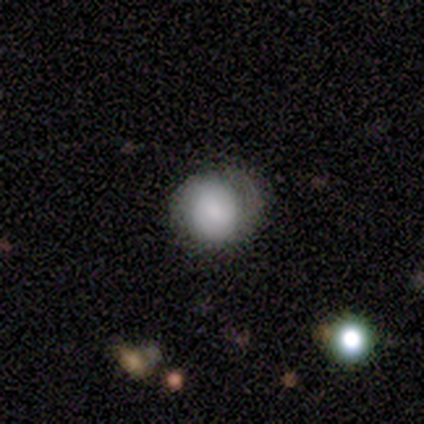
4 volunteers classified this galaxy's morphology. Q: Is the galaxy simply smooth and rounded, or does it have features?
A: smooth — 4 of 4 (100%).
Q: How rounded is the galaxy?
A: round — 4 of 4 (100%).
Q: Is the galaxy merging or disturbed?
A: none — 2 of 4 (50%).